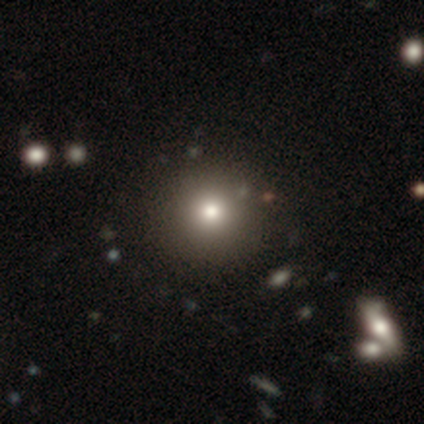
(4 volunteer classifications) Overall: smooth (75%). How rounded: round (100%). Merging: none (75%).